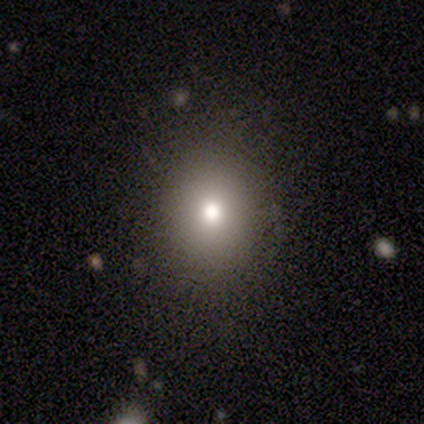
A smooth galaxy with no disk features (100%) that is round (100%). Merging: none (100%).